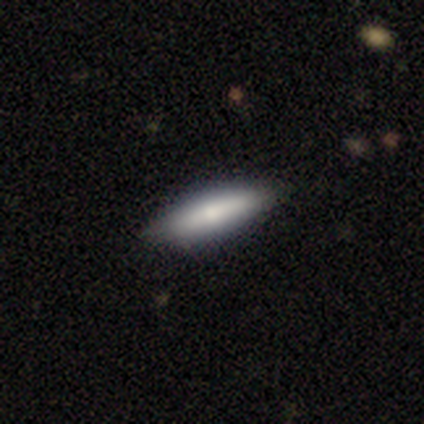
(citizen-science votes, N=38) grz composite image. It shows a smooth galaxy with no disk features (76%) that is cigar-shaped (66%). Merging: none (89%).